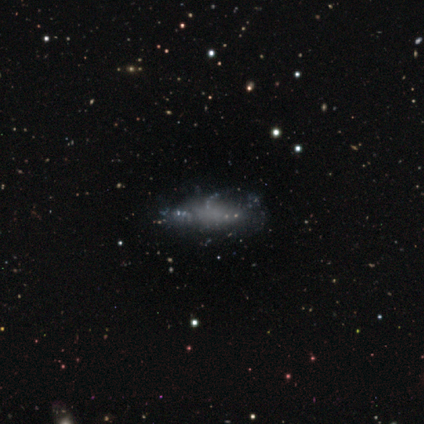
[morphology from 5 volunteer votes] Smooth or featured? 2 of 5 (40%, tied with featured or disk) said smooth. How rounded? 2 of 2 (100%) said in between. Merging? 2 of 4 (50%) said none.